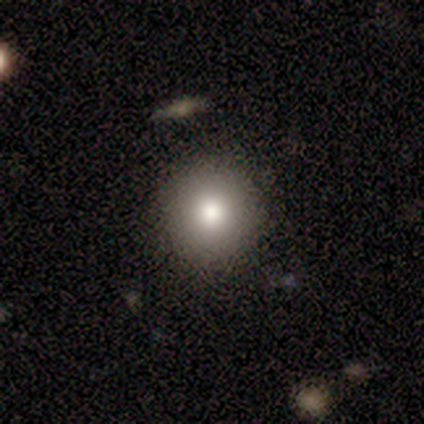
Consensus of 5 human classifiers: A smooth galaxy with no disk features (80%) that is round (100%). Merging: none (75%).